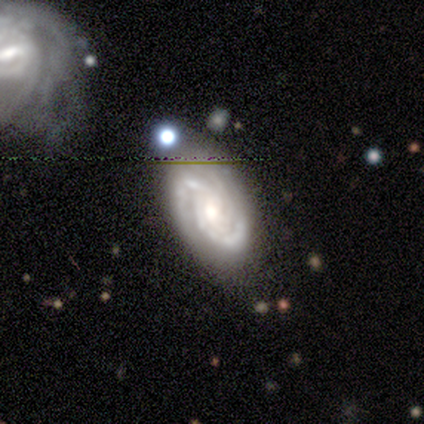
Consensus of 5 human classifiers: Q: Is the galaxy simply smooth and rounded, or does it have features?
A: featured or disk — 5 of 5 (100%).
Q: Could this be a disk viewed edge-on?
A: no — 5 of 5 (100%).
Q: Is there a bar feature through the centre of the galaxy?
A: no — 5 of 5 (100%).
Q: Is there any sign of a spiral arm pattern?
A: yes — 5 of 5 (100%).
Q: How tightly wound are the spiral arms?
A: tight — 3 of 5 (60%).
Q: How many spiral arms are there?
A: can't tell — 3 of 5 (60%).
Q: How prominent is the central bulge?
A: moderate — 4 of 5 (80%).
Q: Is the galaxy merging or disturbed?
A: none — 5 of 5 (100%).